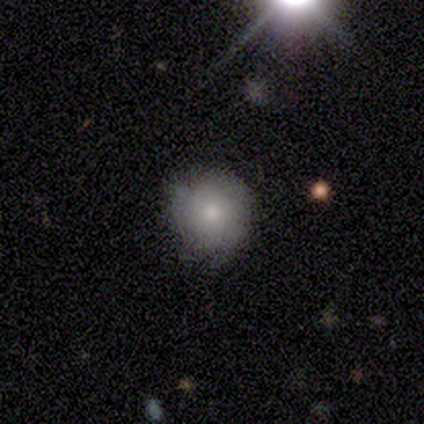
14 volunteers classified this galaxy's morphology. A smooth galaxy with no disk features (93%) that is round (100%). Merging: none (64%).